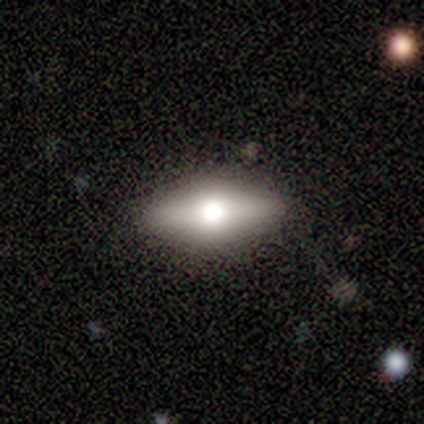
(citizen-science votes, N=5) Q: Smooth or featured?
A: smooth (60%); runner-up: featured or disk (20%)
Q: How rounded?
A: in between (67%); runner-up: cigar-shaped (33%)
Q: Merging?
A: none (100%)